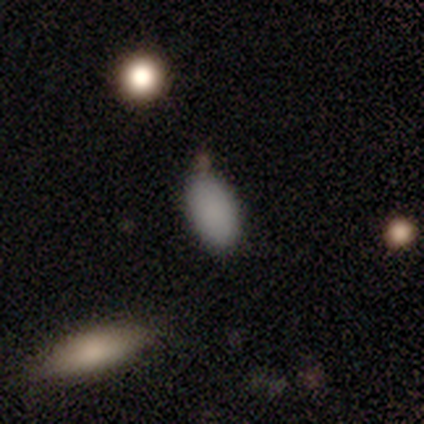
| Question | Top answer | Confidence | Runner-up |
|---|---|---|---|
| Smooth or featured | smooth | 62% | star or artifact (25%) |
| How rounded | in between | 100% | — |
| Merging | none | 67% | minor disturbance (33%) |